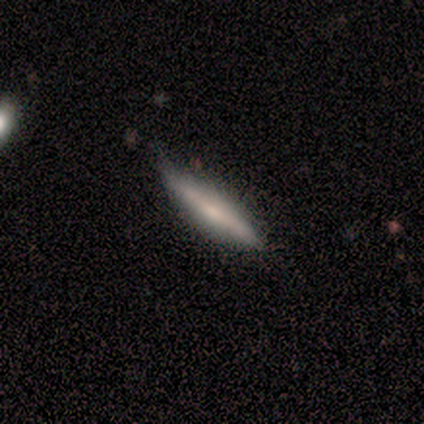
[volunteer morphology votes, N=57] Smooth or featured: smooth — 49% (featured or disk — 47%)
How rounded: cigar-shaped — 93% (in between — 7%)
Merging: none — 73% (minor disturbance — 25%)